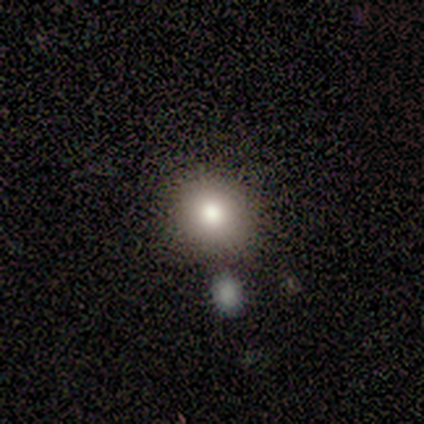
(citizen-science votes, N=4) smooth 100%, featured or disk 0%, star or artifact 0%. Down the decision tree: how rounded — round (75%); merging — none (75%).